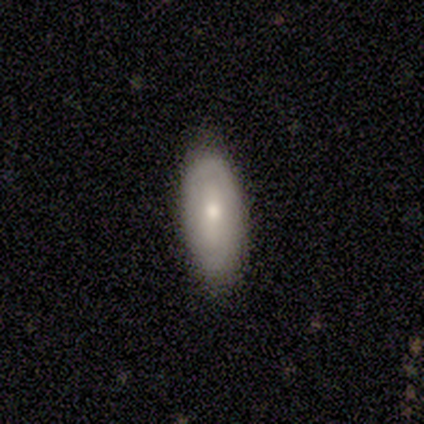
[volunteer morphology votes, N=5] Smooth or featured? smooth (80%)
How rounded? in between (75%)
Merging? none (75%)